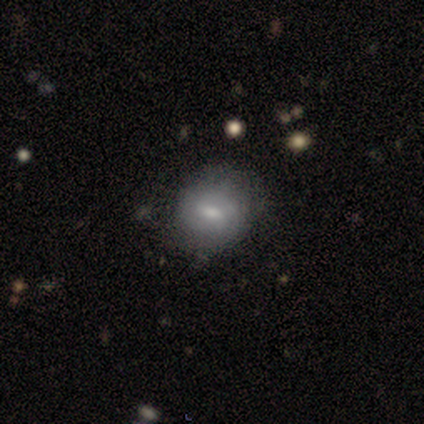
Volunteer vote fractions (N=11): Q: Smooth or featured?
A: smooth (45%); tied with: featured or disk (45%)
Q: How rounded?
A: in between (80%); runner-up: round (20%)
Q: Merging?
A: none (50%); tied with: minor disturbance (50%)